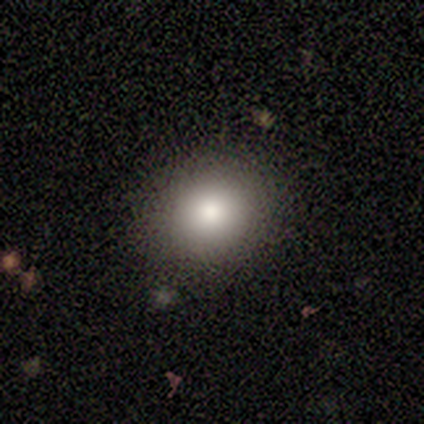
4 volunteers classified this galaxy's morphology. smooth_or_featured: smooth (p=1.00)
how_rounded: round (p=0.50) [tied with: in between p=0.50]
merging: none (p=1.00)